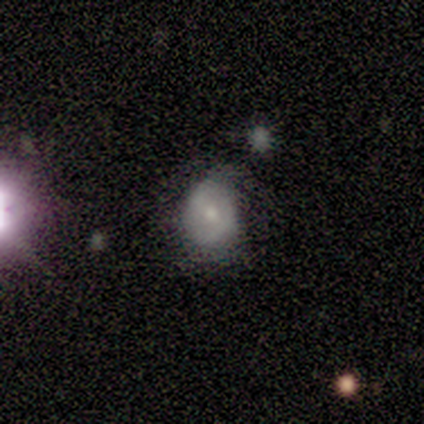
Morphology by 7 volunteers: Smooth or featured: smooth — 43% (tied with featured or disk — 43%)
How rounded: in between — 67% (round — 33%)
Merging: minor disturbance — 67% (none — 17%)